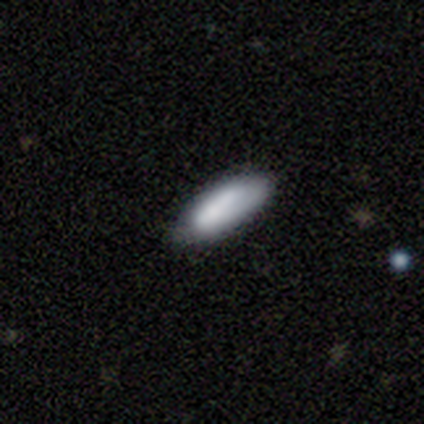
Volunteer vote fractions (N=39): Smooth or featured? 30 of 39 (77%) said smooth. How rounded? 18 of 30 (60%) said in between. Merging? 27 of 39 (69%) said none.